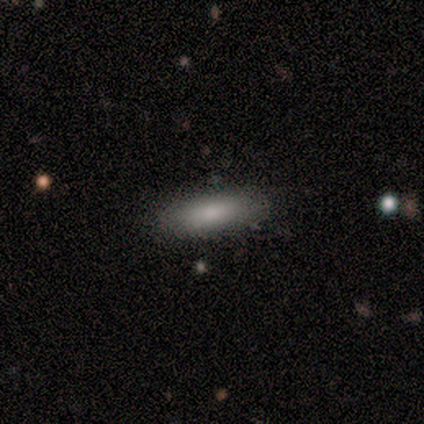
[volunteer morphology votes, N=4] Q: Smooth or featured?
A: smooth (100%)
Q: How rounded?
A: in between (75%); runner-up: cigar-shaped (25%)
Q: Merging?
A: none (100%)